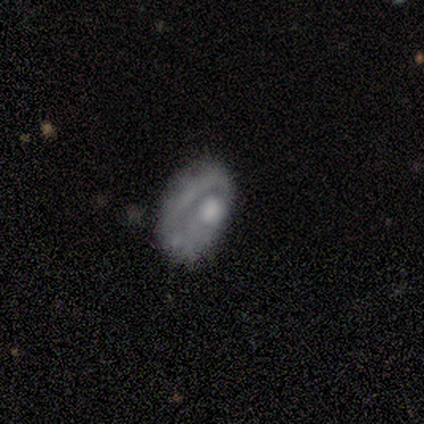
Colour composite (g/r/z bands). It shows a featured or disk galaxy (60%) with no bar (100%), no spiral arms (100%) and a moderate central bulge (67%). Merging: minor disturbance (40%, tied with major disturbance).